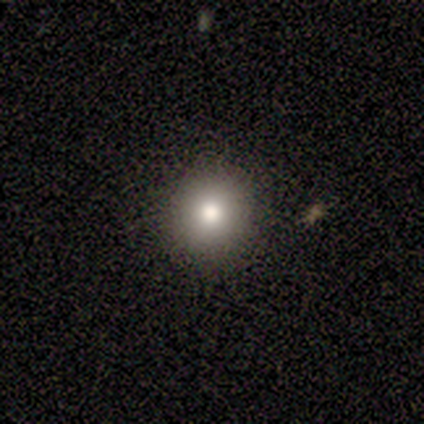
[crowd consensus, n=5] smooth_or_featured: smooth (p=1.00)
how_rounded: round (p=0.80) [alt: in between p=0.20]
merging: none (p=0.80) [alt: minor disturbance p=0.20]